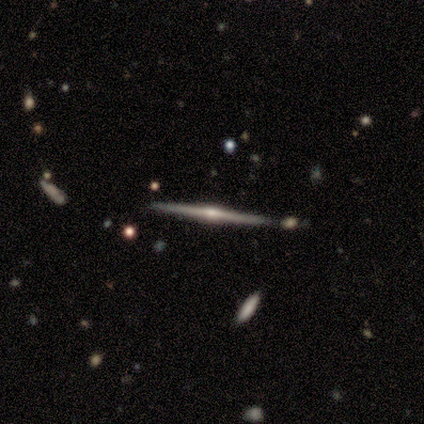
Volunteers were most divided on "merging": none: 87%, merger: 8%, minor disturbance: 3%, major disturbance: 3%. More confident: edge-on disk — yes (100%); smooth or featured — featured or disk (90%); edge-on bulge — rounded (89%).